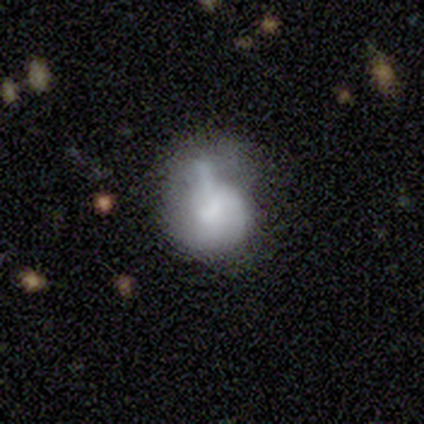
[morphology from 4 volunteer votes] Overall: featured or disk (50%; smooth 25%). Edge-on disk: no (100%). Bar: weak (50%, tied with no). Spiral arms: no (100%). Bulge size: moderate (50%, tied with none). Merging: none (67%; major disturbance 33%).